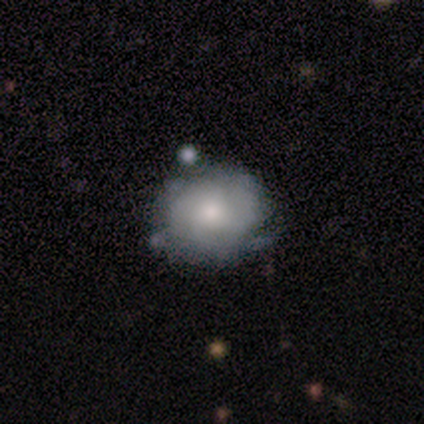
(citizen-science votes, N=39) smooth 51%, featured or disk 38%, star or artifact 10%. Down the decision tree: how rounded — round (75%); merging — none (49%).